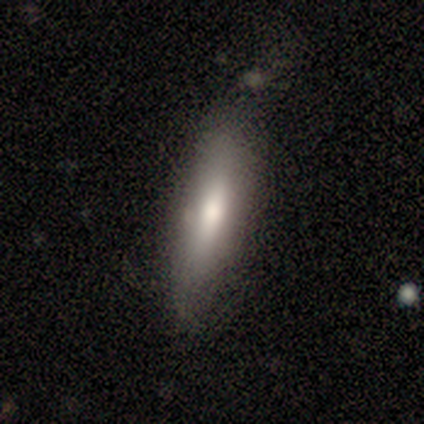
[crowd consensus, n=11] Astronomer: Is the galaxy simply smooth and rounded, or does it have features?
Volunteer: smooth — 73%.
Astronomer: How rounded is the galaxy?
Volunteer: cigar-shaped — 75%.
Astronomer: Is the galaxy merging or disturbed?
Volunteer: none — 55%.